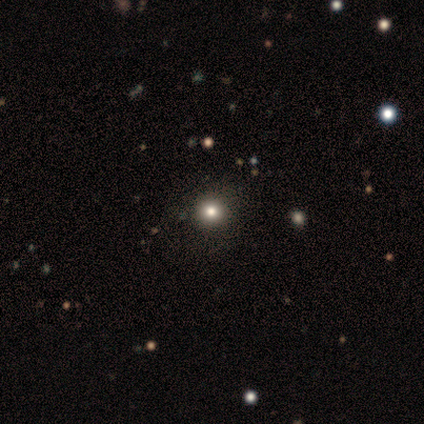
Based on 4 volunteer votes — Smooth or featured?
  - smooth: 75% *
  - featured or disk: 25%
  - star or artifact: 0%
How rounded?
  - round: 67% *
  - in between: 33%
  - cigar-shaped: 0%
Merging?
  - none: 75% *
  - minor disturbance: 25%
  - major disturbance: 0%
  - merger: 0%